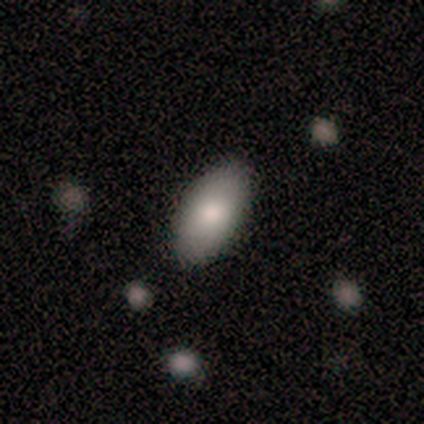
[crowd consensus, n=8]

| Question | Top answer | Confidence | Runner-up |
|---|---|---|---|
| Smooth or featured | smooth | 100% | — |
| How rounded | in between | 100% | — |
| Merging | none | 100% | — |